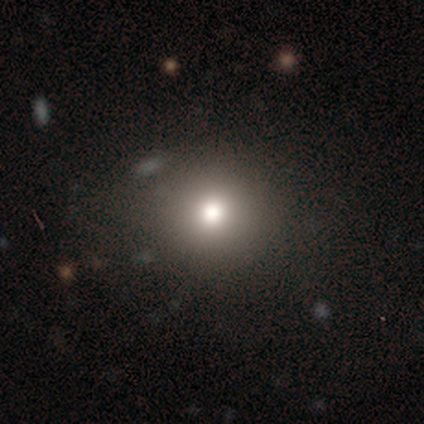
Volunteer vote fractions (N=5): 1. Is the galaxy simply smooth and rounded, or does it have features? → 80% smooth, 20% star or artifact, 0% featured or disk.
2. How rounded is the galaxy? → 100% round, 0% in between, 0% cigar-shaped.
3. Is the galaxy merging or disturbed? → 75% none, 25% minor disturbance, 0% major disturbance, 0% merger.